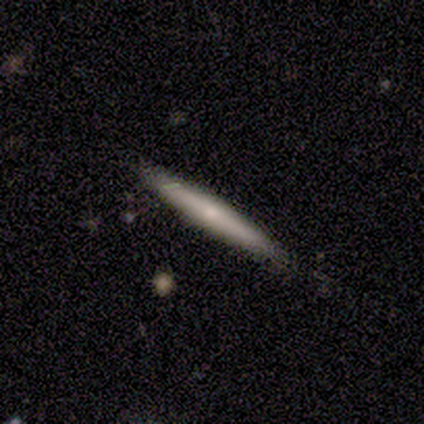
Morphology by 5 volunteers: A featured or disk galaxy (80%) viewed edge-on (100%) with a rounded central bulge (75%).

Vote fractions:
- Smooth or featured? featured or disk: 80% / smooth: 20% / star or artifact: 0%
- Edge-on disk? yes: 100% / no: 0%
- Edge-on bulge? rounded: 75% / none: 25% / boxy: 0%
- Merging? none: 80% / minor disturbance: 20% / major disturbance: 0% / merger: 0%